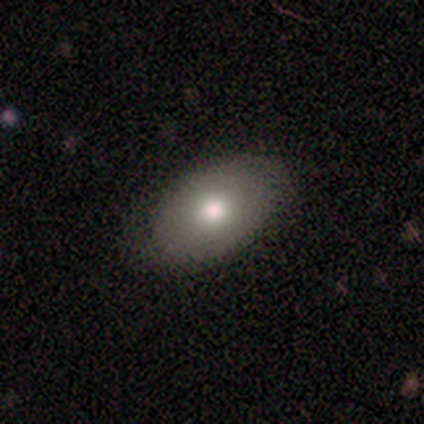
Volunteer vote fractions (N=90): Smooth or featured? 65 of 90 (72%) said smooth. How rounded? 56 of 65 (86%) said in between. Merging? 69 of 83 (83%) said none.